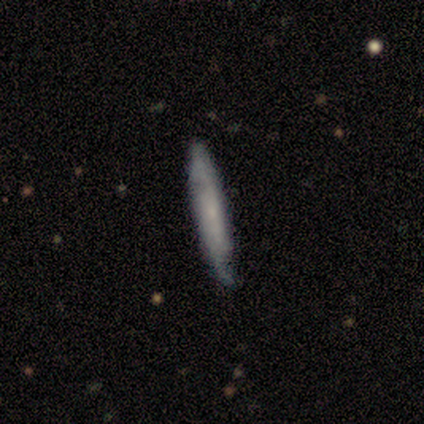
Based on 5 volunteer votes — This appears to be a featured or disk galaxy (60%) viewed edge-on (67%) with no central bulge (100%). Merging: none (80%).